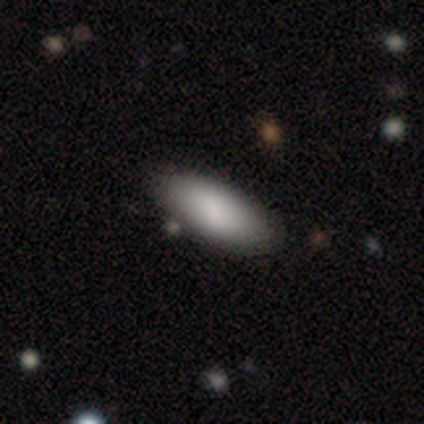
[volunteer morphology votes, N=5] This appears to be a smooth galaxy with no disk features (100%) that is in between round and cigar-shaped (100%). Merging: none (100%).